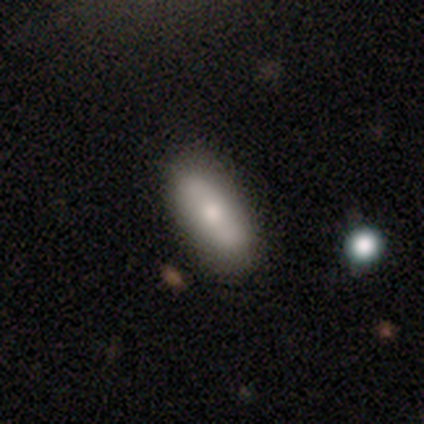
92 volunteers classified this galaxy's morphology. This is likely a smooth galaxy (74%). How rounded: likely in between (71%). Merging: likely none (78%).